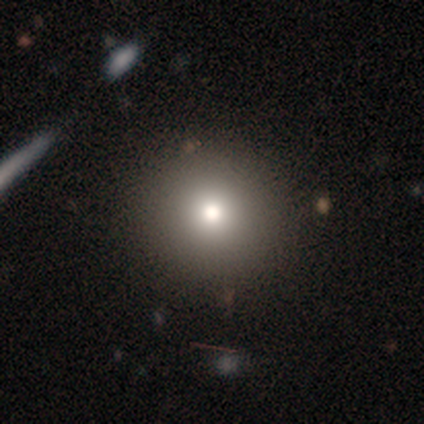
A star or artifact, not a galaxy (60%).

Vote fractions:
- Smooth or featured? star or artifact: 60% / smooth: 40% / featured or disk: 0%